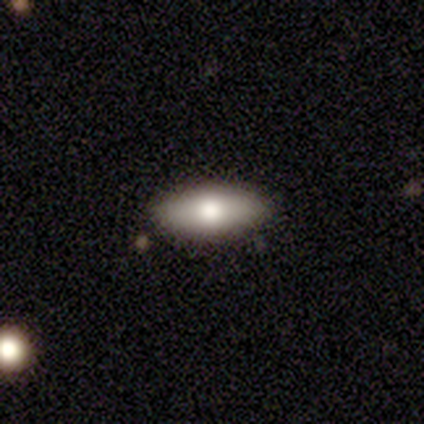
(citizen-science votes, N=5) smooth_or_featured: smooth (p=0.80) [alt: featured or disk p=0.20]
how_rounded: in between (p=1.00)
merging: none (p=0.60) [alt: minor disturbance p=0.40]